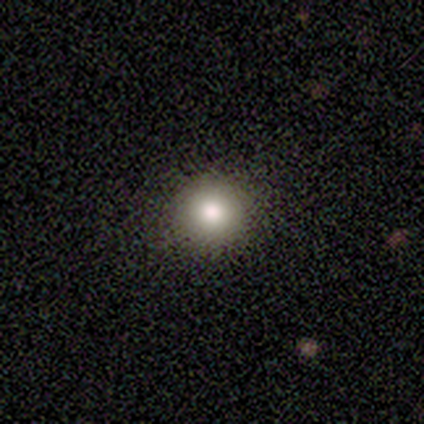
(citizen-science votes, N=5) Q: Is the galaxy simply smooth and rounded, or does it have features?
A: smooth — 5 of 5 (100%).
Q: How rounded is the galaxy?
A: round — 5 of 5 (100%).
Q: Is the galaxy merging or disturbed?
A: none — 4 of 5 (80%).